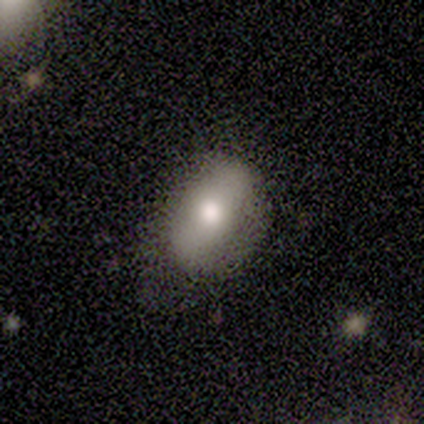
smooth 80%, featured or disk 20%, star or artifact 0%. Down the decision tree: how rounded — in between (75%); merging — none (80%).